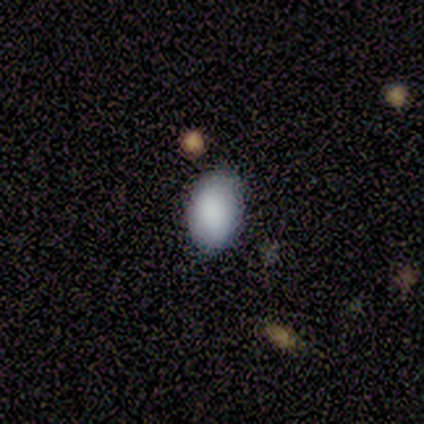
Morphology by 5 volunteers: smooth_or_featured: smooth (p=1.00)
how_rounded: in between (p=1.00)
merging: none (p=0.80) [alt: minor disturbance p=0.20]